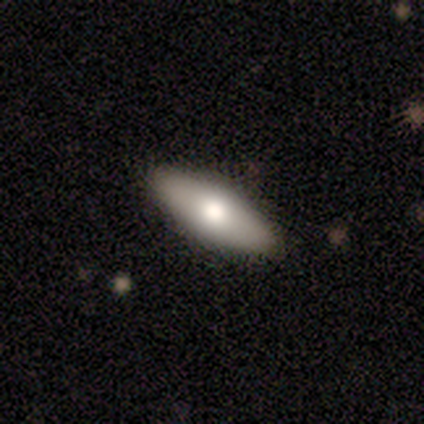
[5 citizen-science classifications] A smooth galaxy with no disk features (100%) that is in between round and cigar-shaped (100%).

Vote fractions:
- Smooth or featured? smooth: 100% / featured or disk: 0% / star or artifact: 0%
- How rounded? in between: 100% / round: 0% / cigar-shaped: 0%
- Merging? none: 80% / minor disturbance: 20% / major disturbance: 0% / merger: 0%